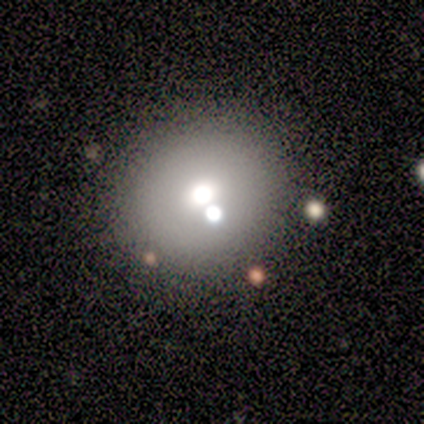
smooth_or_featured: smooth (p=0.56) [alt: featured or disk p=0.25]
how_rounded: round (p=1.00)
merging: none (p=0.85) [alt: major disturbance p=0.08]